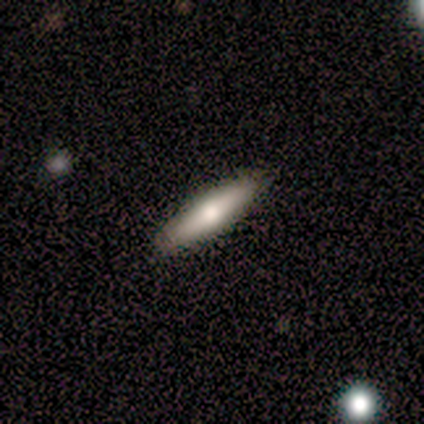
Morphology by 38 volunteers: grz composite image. It shows a smooth galaxy with no disk features (66%) that is cigar-shaped (80%). Merging: none (76%).